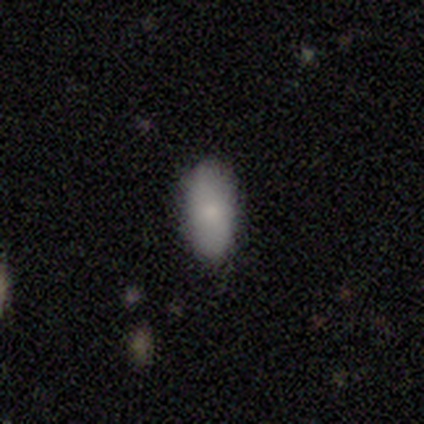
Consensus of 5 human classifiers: Smooth or featured: smooth — 100%
How rounded: in between — 100%
Merging: none — 80% (minor disturbance — 20%)